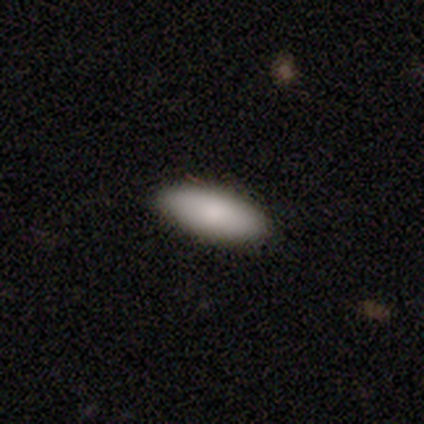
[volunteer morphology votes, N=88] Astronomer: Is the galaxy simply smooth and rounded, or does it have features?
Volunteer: smooth — 89%.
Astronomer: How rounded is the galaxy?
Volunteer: in between — 81%.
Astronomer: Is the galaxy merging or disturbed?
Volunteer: none — 92%.